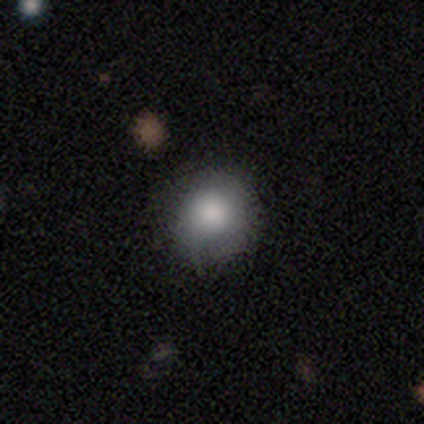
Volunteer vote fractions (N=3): A smooth galaxy with no disk features (100%) that is round (67%).

Vote fractions:
- Smooth or featured? smooth: 100% / featured or disk: 0% / star or artifact: 0%
- How rounded? round: 67% / in between: 33% / cigar-shaped: 0%
- Merging? none: 100% / minor disturbance: 0% / major disturbance: 0% / merger: 0%